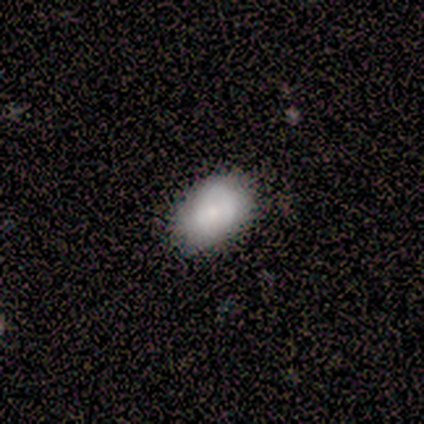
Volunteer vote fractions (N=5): Morphology: type=smooth (60%); roundness=in between (100%); merging=none (75%).